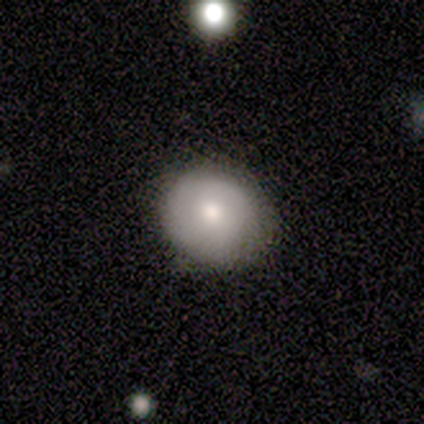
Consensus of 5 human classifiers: Volunteers were most divided on "how rounded": round: 67%, in between: 33%, cigar-shaped: 0%. More confident: merging — none (100%); smooth or featured — smooth (60%).